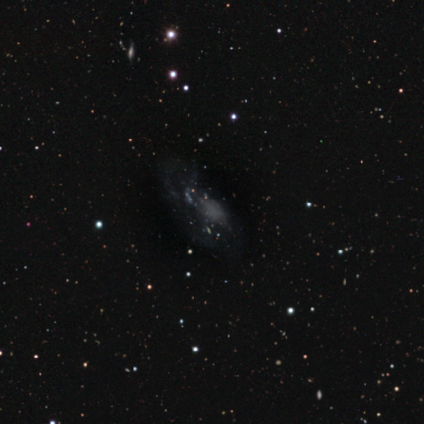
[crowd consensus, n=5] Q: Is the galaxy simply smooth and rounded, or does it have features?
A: featured or disk — 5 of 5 (100%).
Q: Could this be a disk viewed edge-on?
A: no — 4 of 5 (80%).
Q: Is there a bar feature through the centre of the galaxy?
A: no — 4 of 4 (100%).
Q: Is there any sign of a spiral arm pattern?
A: no — 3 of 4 (75%).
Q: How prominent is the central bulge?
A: none — 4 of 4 (100%).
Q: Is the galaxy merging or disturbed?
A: major disturbance — 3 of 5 (60%).